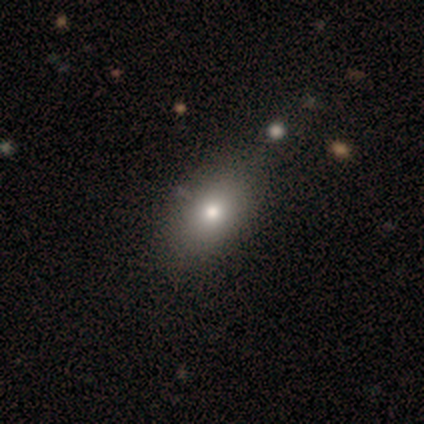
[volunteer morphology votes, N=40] Smooth or featured? smooth (78%)
How rounded? in between (90%)
Merging? none (47%)